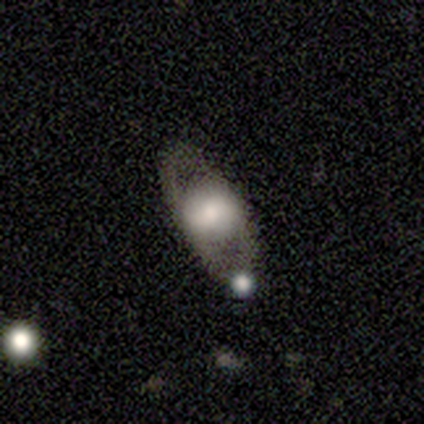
A featured or disk galaxy (60%) with no bar (100%), no spiral arms (100%) and a large central bulge (50%, tied with moderate). Merging: none (40%).